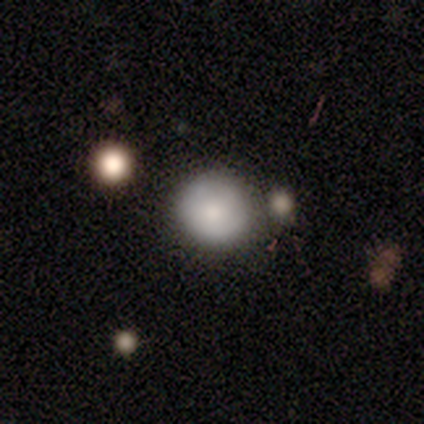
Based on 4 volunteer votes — This appears to be a smooth galaxy with no disk features (50%) that is round (100%). Merging: none (67%).